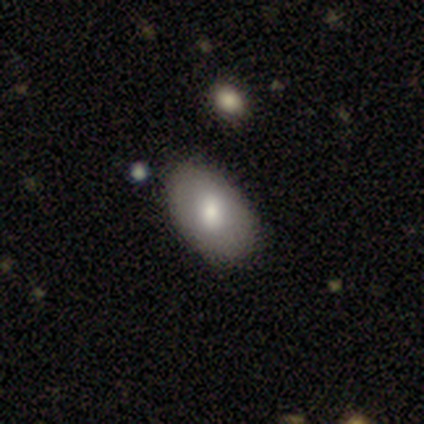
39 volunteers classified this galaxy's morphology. Smooth or featured: smooth — 67% (featured or disk — 28%)
How rounded: in between — 100%
Merging: none — 92% (minor disturbance — 5%)